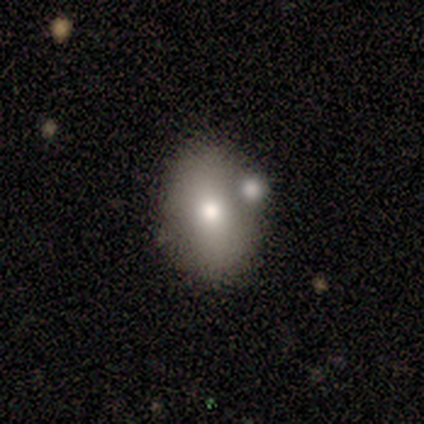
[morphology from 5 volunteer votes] This is clearly a smooth galaxy (80%). How rounded: clearly in between (100%). Merging: clearly none (80%).